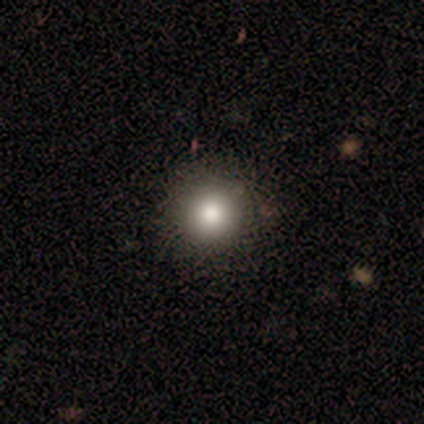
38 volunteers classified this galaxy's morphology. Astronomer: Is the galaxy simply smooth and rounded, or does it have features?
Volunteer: smooth — 82%.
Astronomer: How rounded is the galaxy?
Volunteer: round — 97%.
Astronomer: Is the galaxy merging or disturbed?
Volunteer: none — 97%.